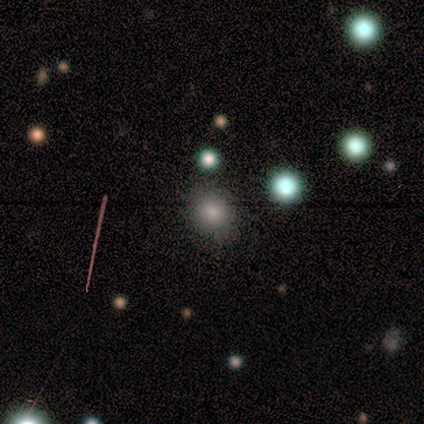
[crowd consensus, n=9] Smooth or featured: smooth — 78% (featured or disk — 11%)
How rounded: round — 86% (in between — 14%)
Merging: none — 88% (merger — 12%)